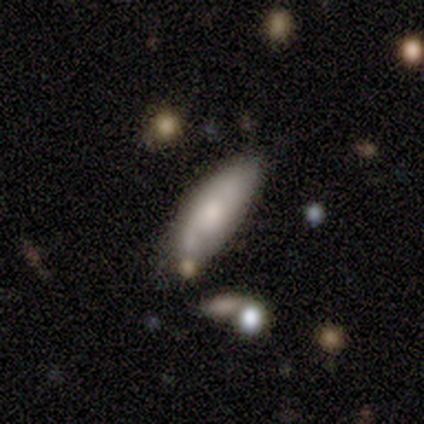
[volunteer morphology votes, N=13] Smooth or featured: featured or disk — 62% (smooth — 38%)
Edge-on disk: no — 88% (yes — 12%)
Bar: no — 57% (weak — 43%)
Spiral arms: yes — 86% (no — 14%)
Spiral winding: tight — 33% (tied with medium — 33%; loose — 33%)
Spiral arm count: 2 — 83% (can't tell — 17%)
Bulge size: small — 43% (large — 29%)
Merging: none — 62% (minor disturbance — 31%)